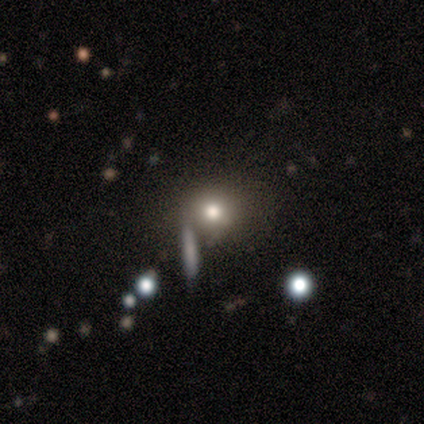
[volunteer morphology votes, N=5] Q: Smooth or featured?
A: smooth (60%); runner-up: featured or disk (40%)
Q: How rounded?
A: round (67%); runner-up: in between (33%)
Q: Merging?
A: none (80%); runner-up: merger (20%)